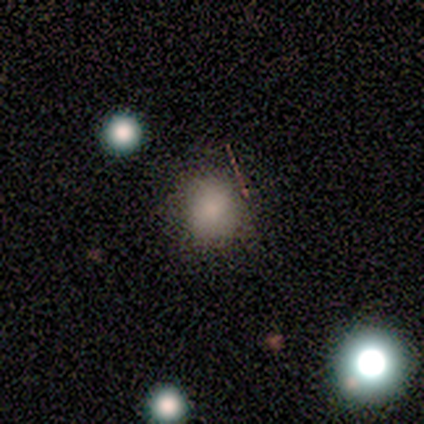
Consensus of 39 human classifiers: Smooth or featured? smooth (85%)
How rounded? round (82%)
Merging? none (88%)